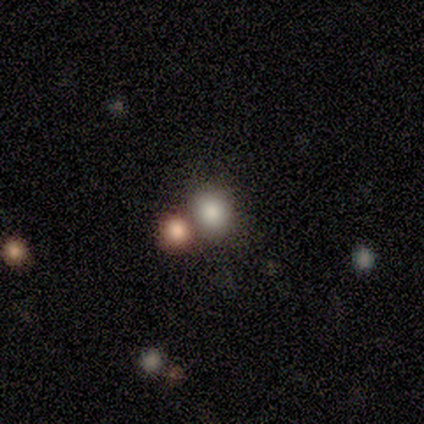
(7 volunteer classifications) smooth-or-featured: smooth: 71% | featured or disk: 14% | star or artifact: 14%
  how-rounded: round: 80% | in between: 20% | cigar-shaped: 0%
  merging: none: 83% | merger: 17% | minor disturbance: 0% | major disturbance: 0%